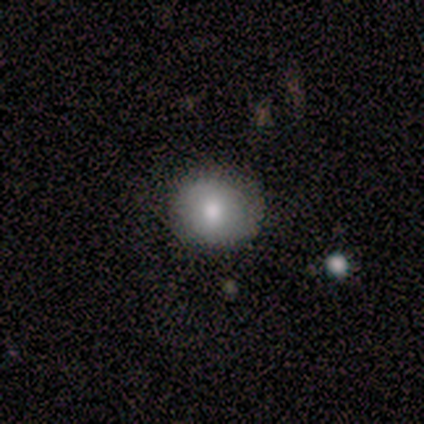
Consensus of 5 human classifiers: A smooth galaxy with no disk features (80%) that is round (100%). Merging: none (100%).